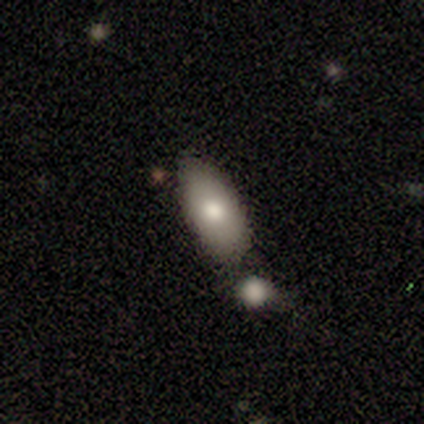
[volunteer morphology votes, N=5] Volunteers were most divided on "merging": merger: 60%, none: 40%, minor disturbance: 0%, major disturbance: 0%. More confident: smooth or featured — smooth (100%); how rounded — in between (80%).